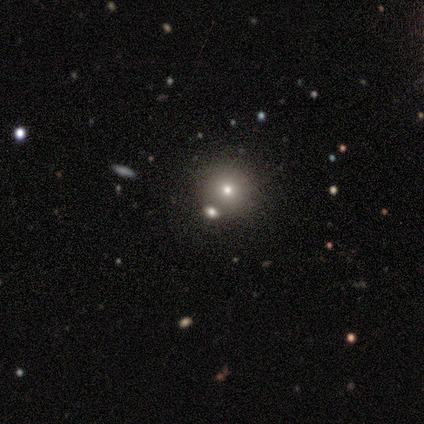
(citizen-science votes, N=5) star or artifact 80%, smooth 20%, featured or disk 0%.